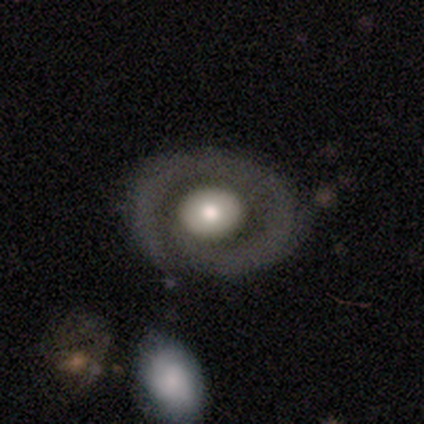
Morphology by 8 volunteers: Smooth or featured? smooth (50%, tied with featured or disk)
How rounded? round (50%, tied with in between)
Merging? none (50%)